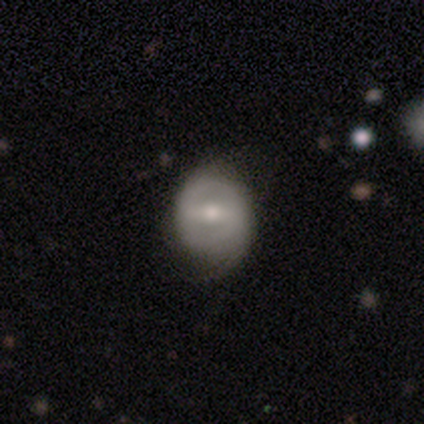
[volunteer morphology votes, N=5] Smooth or featured? 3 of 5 (60%) said featured or disk. Edge-on disk? 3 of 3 (100%) said no. Bar? 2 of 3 (67%) said strong. Spiral arms? 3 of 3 (100%) said no. Bulge size? 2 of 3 (67%) said small. Merging? 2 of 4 (50%, tied with minor disturbance) said none.